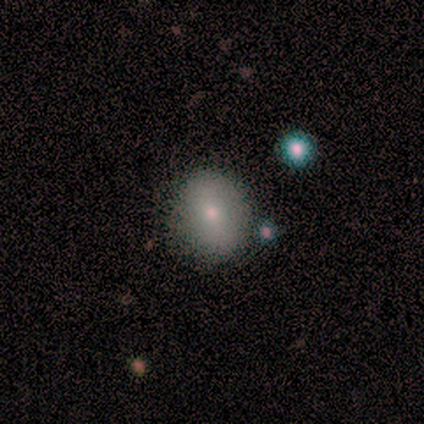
Smooth or featured?
  - smooth: 80% *
  - star or artifact: 20%
  - featured or disk: 0%
How rounded?
  - round: 100% *
  - in between: 0%
  - cigar-shaped: 0%
Merging?
  - none: 100% *
  - minor disturbance: 0%
  - major disturbance: 0%
  - merger: 0%